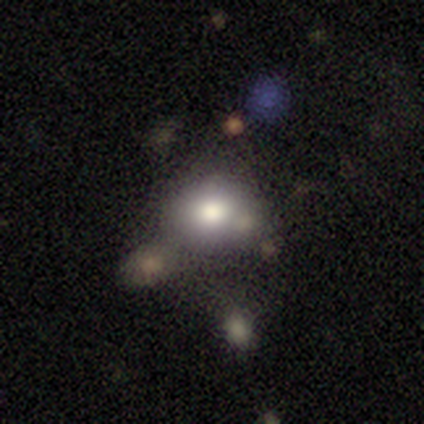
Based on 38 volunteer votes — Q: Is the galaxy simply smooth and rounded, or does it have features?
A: smooth — 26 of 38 (68%).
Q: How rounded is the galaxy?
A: in between — 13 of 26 (50%).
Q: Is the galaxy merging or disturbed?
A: none — 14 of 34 (41%).